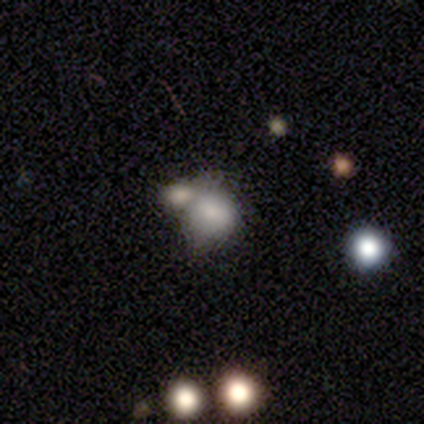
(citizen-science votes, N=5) smooth 80%, star or artifact 20%, featured or disk 0%. Down the decision tree: how rounded — round (75%); merging — merger (75%).